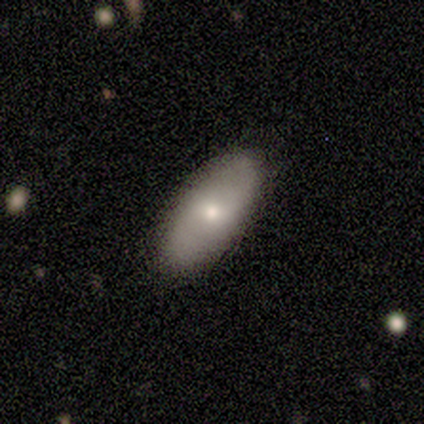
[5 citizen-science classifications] Smooth or featured: smooth — 80% (featured or disk — 20%)
How rounded: in between — 100%
Merging: none — 80% (minor disturbance — 20%)